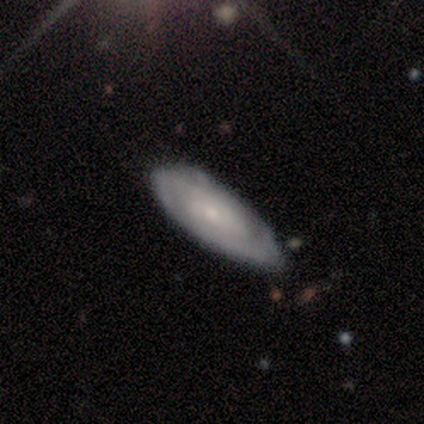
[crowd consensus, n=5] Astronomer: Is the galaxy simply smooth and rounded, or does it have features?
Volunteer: featured or disk — 60% (runner-up: smooth, 40%).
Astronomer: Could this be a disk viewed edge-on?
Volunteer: no — 100%.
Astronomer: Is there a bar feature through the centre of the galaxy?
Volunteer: no — 67%.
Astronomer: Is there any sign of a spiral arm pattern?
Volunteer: yes — 100%.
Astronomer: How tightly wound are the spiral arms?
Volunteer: medium — 67%.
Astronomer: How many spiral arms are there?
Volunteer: can't tell — 67%.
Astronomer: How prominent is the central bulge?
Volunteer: small — 67%.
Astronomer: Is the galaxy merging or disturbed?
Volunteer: none — 80%.